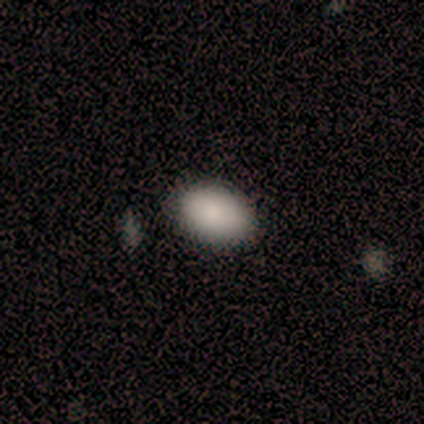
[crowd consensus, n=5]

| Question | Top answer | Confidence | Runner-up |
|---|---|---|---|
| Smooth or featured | smooth | 60% | star or artifact (40%) |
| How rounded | in between | 100% | — |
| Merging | none | 100% | — |